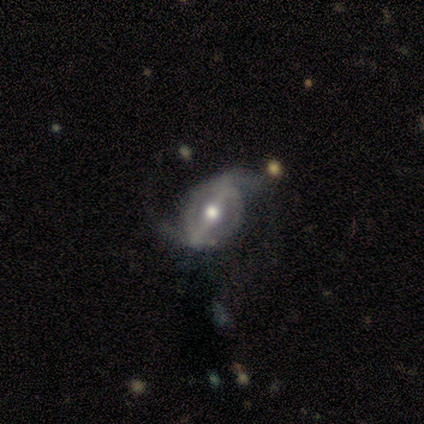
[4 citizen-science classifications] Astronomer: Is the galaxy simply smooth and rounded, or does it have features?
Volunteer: featured or disk — 100%.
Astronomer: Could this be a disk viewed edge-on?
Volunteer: no — 100%.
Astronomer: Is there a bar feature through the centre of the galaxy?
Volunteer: strong — 50%.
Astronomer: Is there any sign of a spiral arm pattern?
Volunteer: yes — 100%.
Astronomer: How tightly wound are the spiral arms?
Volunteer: loose — 75%.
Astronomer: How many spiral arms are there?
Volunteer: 2 — 100%.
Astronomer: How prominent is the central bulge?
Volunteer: moderate — 75%.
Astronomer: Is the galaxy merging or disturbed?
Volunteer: none — 75%.